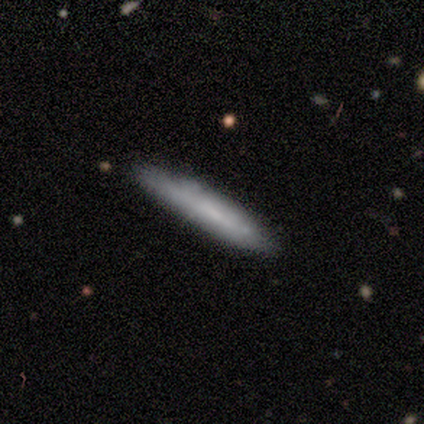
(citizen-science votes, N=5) smooth 60%, featured or disk 40%, star or artifact 0%. Down the decision tree: how rounded — cigar-shaped (100%); merging — none (80%).